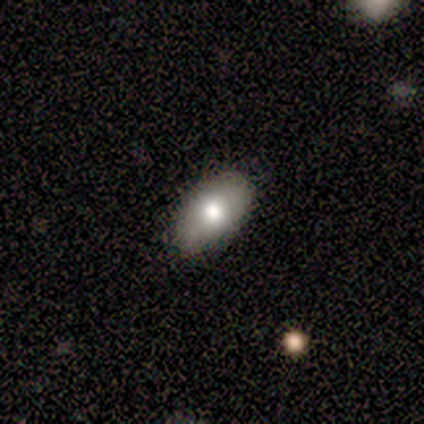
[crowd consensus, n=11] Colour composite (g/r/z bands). It shows a smooth galaxy with no disk features (73%) that is in between round and cigar-shaped (100%). Merging: none (80%).